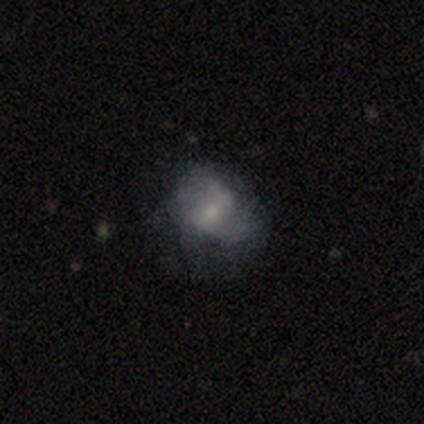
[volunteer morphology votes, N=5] Smooth or featured: featured or disk — 80% (star or artifact — 20%)
Edge-on disk: no — 100%
Bar: no — 75% (weak — 25%)
Spiral arms: no — 75% (yes — 25%)
Bulge size: small — 50% (moderate — 25%)
Merging: major disturbance — 75% (none — 25%)